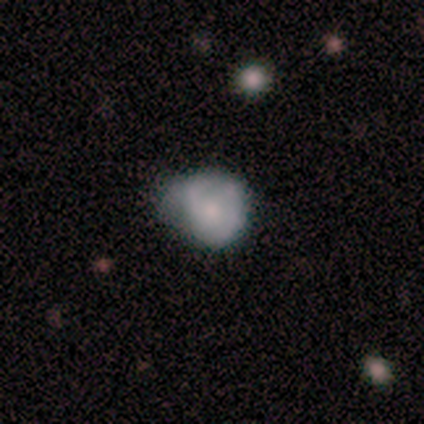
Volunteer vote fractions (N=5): Q: Smooth or featured?
A: smooth (60%); runner-up: featured or disk (40%)
Q: How rounded?
A: round (100%)
Q: Merging?
A: minor disturbance (80%); runner-up: none (20%)